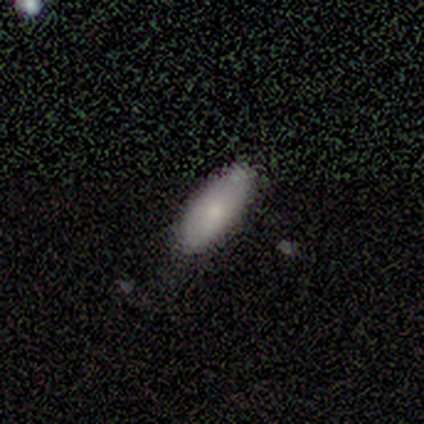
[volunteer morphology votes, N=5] A smooth galaxy with no disk features (100%) that is in between round and cigar-shaped (80%). Merging: none (60%).